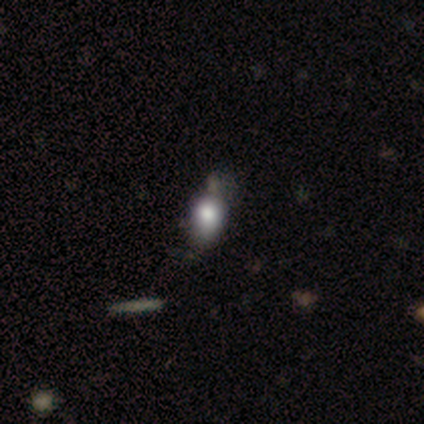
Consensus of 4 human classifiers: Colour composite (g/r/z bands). It shows a smooth galaxy with no disk features (100%) that is in between round and cigar-shaped (75%). Merging: none (50%).